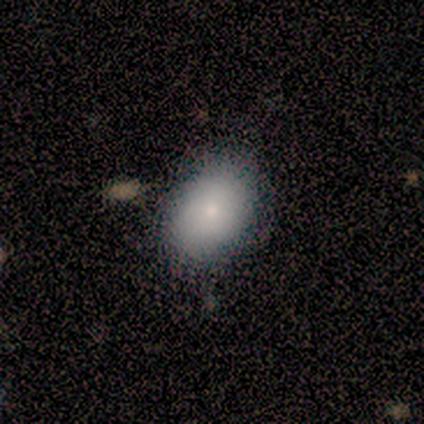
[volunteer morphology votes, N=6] Smooth or featured? smooth (100%)
How rounded? in between (83%)
Merging? none (83%)